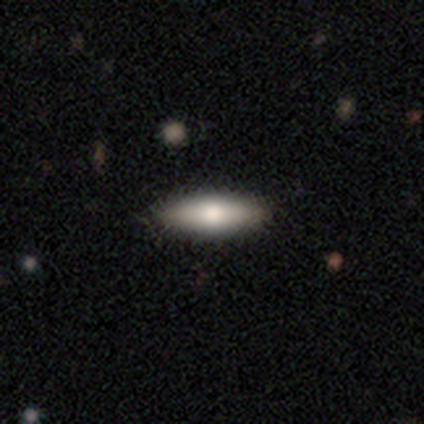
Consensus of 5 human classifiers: smooth 60%, featured or disk 20%, star or artifact 20%. Down the decision tree: how rounded — in between (67%); merging — none (100%).